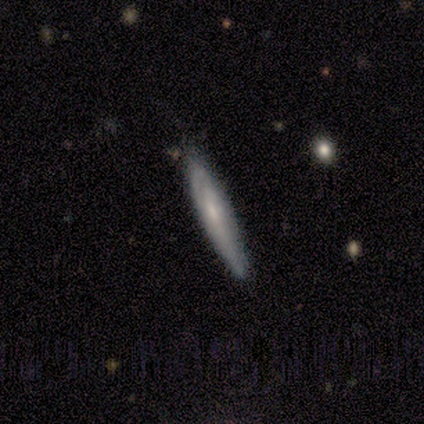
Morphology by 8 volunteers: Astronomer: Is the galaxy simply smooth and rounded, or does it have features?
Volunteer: smooth — 50%, tied with featured or disk at 50%.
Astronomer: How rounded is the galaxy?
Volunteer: cigar-shaped — 100%.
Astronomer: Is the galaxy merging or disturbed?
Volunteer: none — 88%.